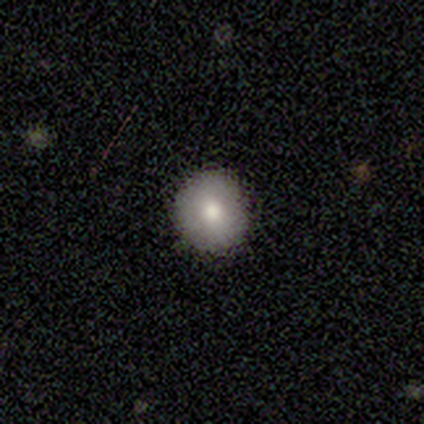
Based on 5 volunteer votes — A smooth galaxy with no disk features (100%) that is round (80%). Merging: none (100%).